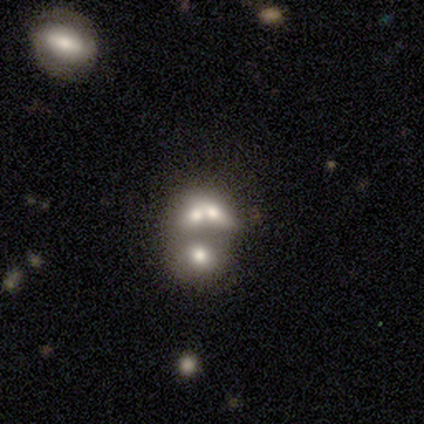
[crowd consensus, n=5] Q: Smooth or featured?
A: featured or disk (40%); tied with: star or artifact (40%)
Q: Edge-on disk?
A: no (100%)
Q: Bar?
A: no (100%)
Q: Spiral arms?
A: no (100%)
Q: Bulge size?
A: large (50%); tied with: none (50%)
Q: Merging?
A: merger (100%)